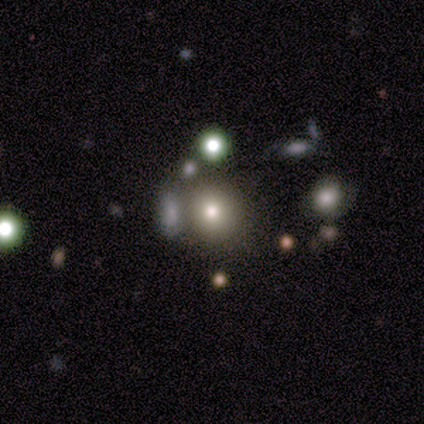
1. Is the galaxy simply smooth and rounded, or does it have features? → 67% smooth, 17% featured or disk, 17% star or artifact.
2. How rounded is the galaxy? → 100% round, 0% in between, 0% cigar-shaped.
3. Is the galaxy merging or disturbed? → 60% none, 40% minor disturbance, 0% major disturbance, 0% merger.